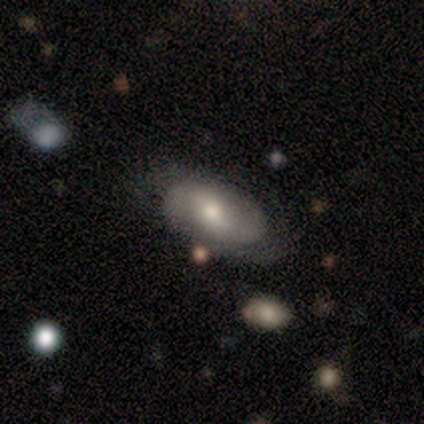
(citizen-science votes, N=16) This appears to be a smooth galaxy with no disk features (56%) that is in between round and cigar-shaped (89%). Merging: none (67%).